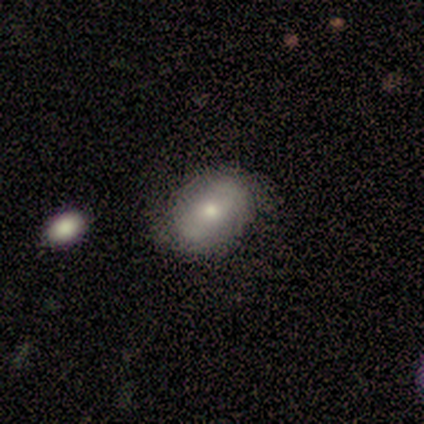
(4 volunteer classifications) Smooth or featured?
  - smooth: 100% *
  - featured or disk: 0%
  - star or artifact: 0%
How rounded?
  - in between: 50% *
  - round: 25%
  - cigar-shaped: 25%
Merging?
  - none: 75% *
  - minor disturbance: 25%
  - major disturbance: 0%
  - merger: 0%